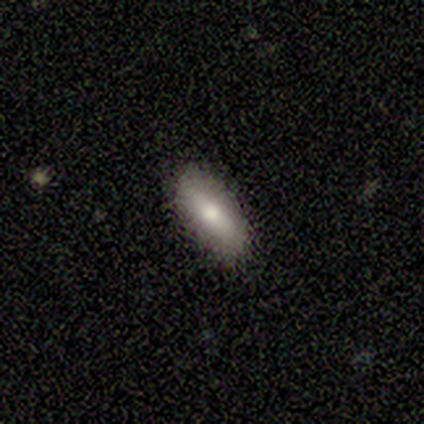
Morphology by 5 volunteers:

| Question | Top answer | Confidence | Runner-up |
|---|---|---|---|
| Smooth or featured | smooth | 60% | featured or disk (40%) |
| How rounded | in between | 100% | — |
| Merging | none | 80% | minor disturbance (20%) |